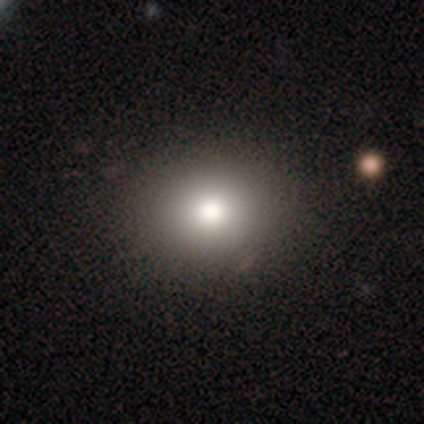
Volunteers were most divided on "smooth or featured" (2-way tie): smooth: 40%, featured or disk: 40%, star or artifact: 20%. More confident: how rounded — round (100%); merging — none (100%).